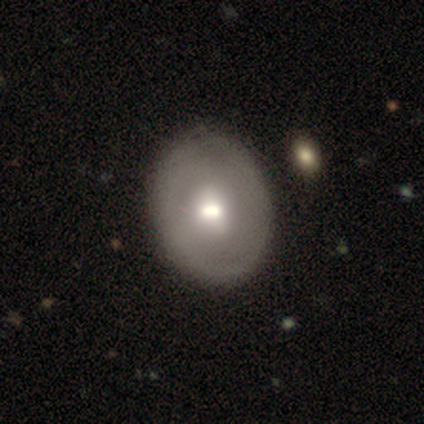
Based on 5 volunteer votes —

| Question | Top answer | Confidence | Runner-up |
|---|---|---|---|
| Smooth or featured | smooth | 60% | featured or disk (40%) |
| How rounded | in between | 67% | round (33%) |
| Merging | none | 100% | — |